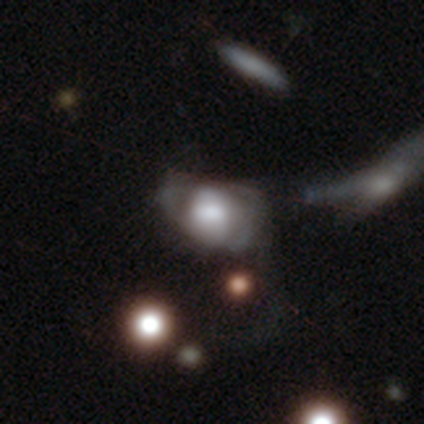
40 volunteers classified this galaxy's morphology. Smooth or featured?
  - featured or disk: 45% *
  - smooth: 42%
  - star or artifact: 12%
Edge-on disk?
  - no: 94% *
  - yes: 6%
Bar?
  - no: 71% *
  - weak: 18%
  - strong: 12%
Spiral arms?
  - no: 59% *
  - yes: 41%
Bulge size?
  - large: 53% *
  - moderate: 24%
  - dominant: 12%
  - small: 12%
  - none: 0%
Merging?
  - merger: 29% *
  - major disturbance: 26%
  - none: 23%
  - minor disturbance: 23%